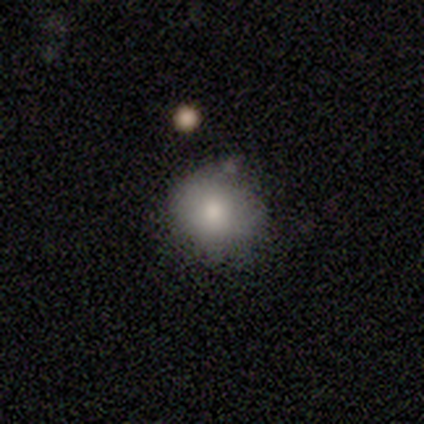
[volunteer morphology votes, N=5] This is clearly a smooth galaxy (80%). How rounded: likely round (75%). Merging: likely none (75%).